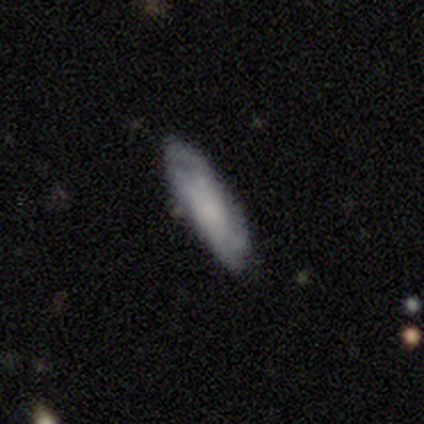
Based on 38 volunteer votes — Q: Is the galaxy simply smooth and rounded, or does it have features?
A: smooth — 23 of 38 (61%).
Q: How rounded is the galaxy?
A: cigar-shaped — 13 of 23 (57%).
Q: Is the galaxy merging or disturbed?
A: none — 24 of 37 (65%).